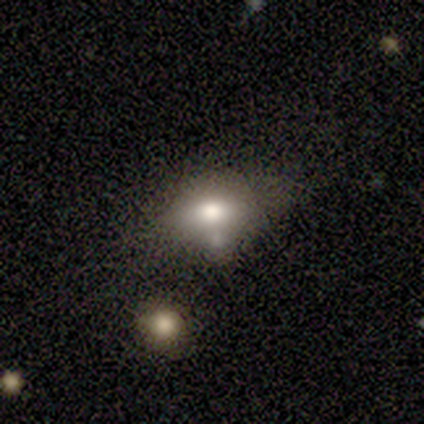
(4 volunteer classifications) A smooth galaxy with no disk features (75%) that is in between round and cigar-shaped (100%).

Vote fractions:
- Smooth or featured? smooth: 75% / featured or disk: 25% / star or artifact: 0%
- How rounded? in between: 100% / round: 0% / cigar-shaped: 0%
- Merging? none: 50% / minor disturbance: 25% / major disturbance: 25% / merger: 0%